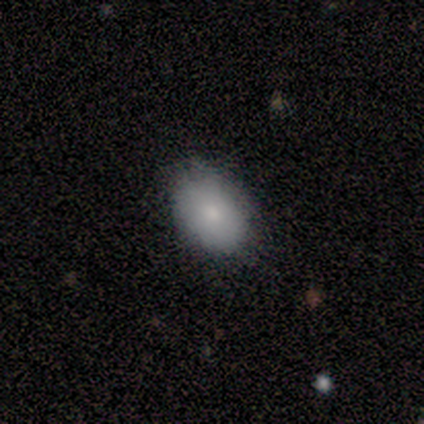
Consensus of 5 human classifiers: A smooth galaxy with no disk features (80%) that is in between round and cigar-shaped (100%).

Vote fractions:
- Smooth or featured? smooth: 80% / featured or disk: 20% / star or artifact: 0%
- How rounded? in between: 100% / round: 0% / cigar-shaped: 0%
- Merging? none: 80% / major disturbance: 20% / minor disturbance: 0% / merger: 0%